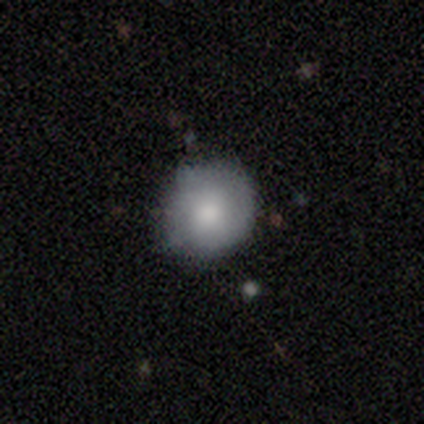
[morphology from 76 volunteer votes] Q: Smooth or featured?
A: smooth (72%); runner-up: featured or disk (22%)
Q: How rounded?
A: round (89%); runner-up: in between (9%)
Q: Merging?
A: none (38%); runner-up: minor disturbance (15%)